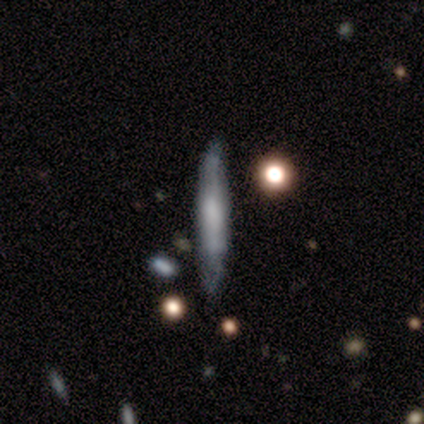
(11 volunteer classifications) Smooth or featured: featured or disk — 55% (smooth — 45%)
Edge-on disk: yes — 100%
Edge-on bulge: rounded — 67% (boxy — 33%)
Merging: none — 45% (minor disturbance — 36%)